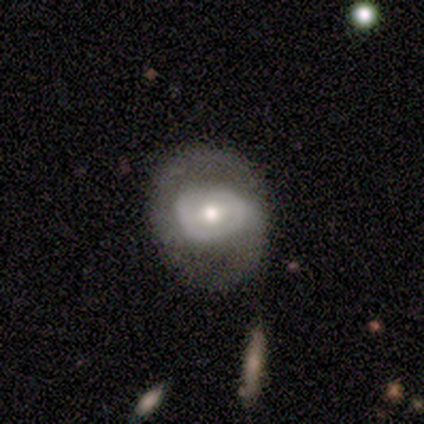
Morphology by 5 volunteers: A featured or disk galaxy (60%) with a strong bar (67%), 2 (50%, tied with can't tell) tight (50%, tied with medium) spiral arms (67%) and a moderate central bulge (67%). Merging: none (100%).